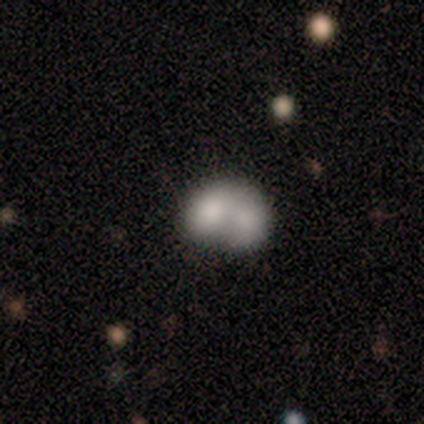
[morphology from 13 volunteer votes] smooth 54%, featured or disk 46%, star or artifact 0%. Down the decision tree: how rounded — in between (86%); merging — merger (92%).